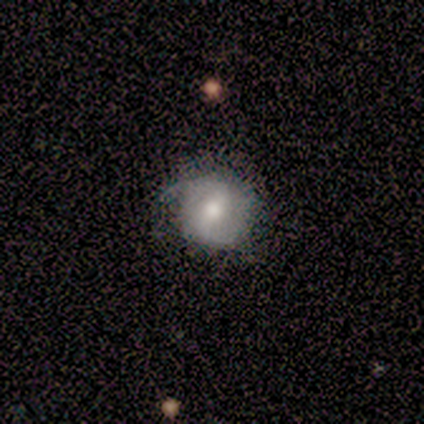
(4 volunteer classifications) smooth_or_featured: smooth (p=0.50) [tied with: featured or disk p=0.50]
how_rounded: round (p=1.00)
merging: none (p=0.50) [tied with: minor disturbance p=0.50]